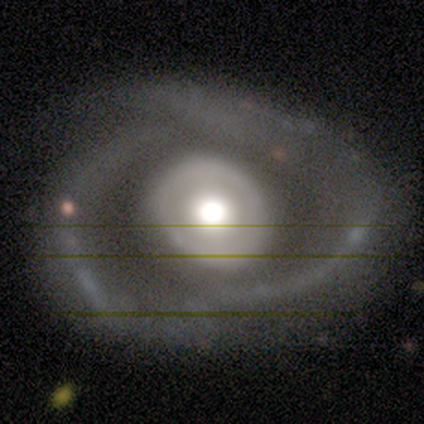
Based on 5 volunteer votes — Q: Smooth or featured?
A: featured or disk (100%)
Q: Edge-on disk?
A: no (100%)
Q: Bar?
A: no (100%)
Q: Spiral arms?
A: no (60%); runner-up: yes (40%)
Q: Bulge size?
A: large (80%); runner-up: moderate (20%)
Q: Merging?
A: none (60%); runner-up: minor disturbance (20%)